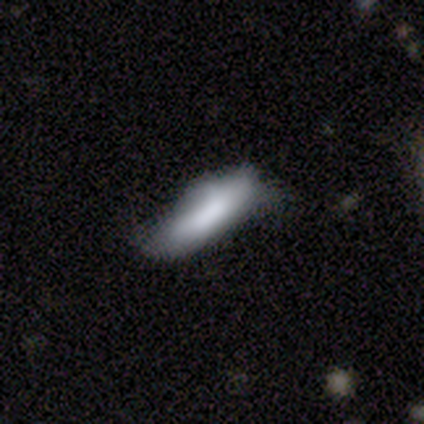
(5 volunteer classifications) Morphology: type=smooth (60%); roundness=in between (100%); merging=minor disturbance (80%).